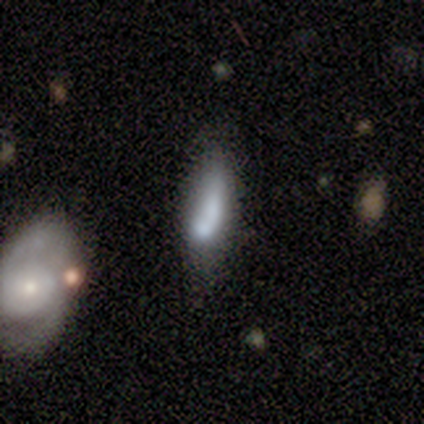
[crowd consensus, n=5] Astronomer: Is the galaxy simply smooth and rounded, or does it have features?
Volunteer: smooth — 60% (runner-up: featured or disk, 40%).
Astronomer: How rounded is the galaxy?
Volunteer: cigar-shaped — 100%.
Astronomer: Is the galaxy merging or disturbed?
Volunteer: none — 60% (runner-up: minor disturbance, 40%).